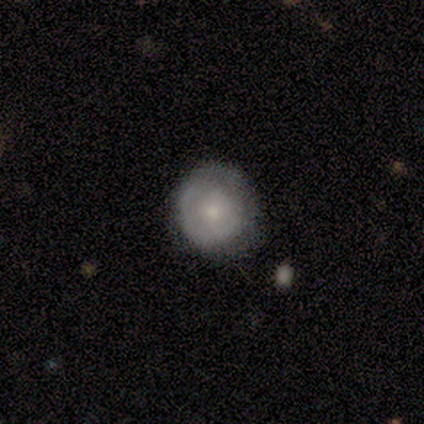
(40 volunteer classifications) This appears to be a smooth galaxy with no disk features (52%) that is round (90%). Merging: none (75%).